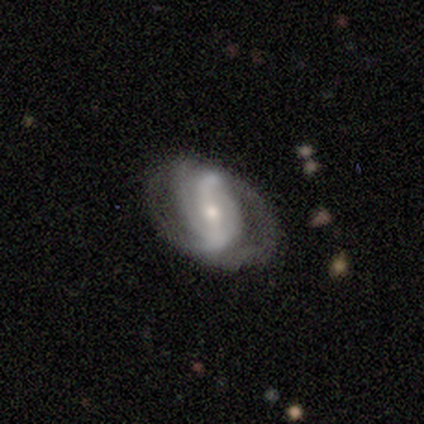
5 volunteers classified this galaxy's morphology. Smooth or featured? featured or disk (80%)
Edge-on disk? no (100%)
Bar? strong (50%)
Spiral arms? yes (100%)
Spiral winding? loose (50%)
Spiral arm count? 2 (75%)
Bulge size? small (100%)
Merging? none (100%)